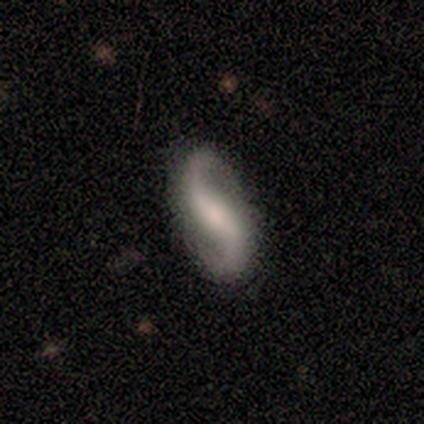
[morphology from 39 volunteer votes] Volunteers were most divided on "bulge size": moderate: 42%, small: 32%, none: 16%, large: 10%, dominant: 0%. Remaining: spiral arms — yes (97%); spiral arm count — 2 (97%); edge-on disk — no (94%); merging — none (86%); smooth or featured — featured or disk (85%); spiral winding — loose (77%); bar — weak (48%).